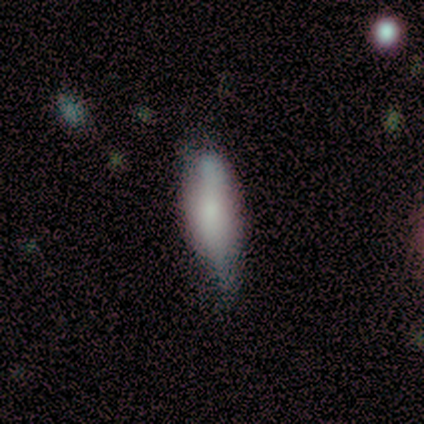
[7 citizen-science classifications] Q: Smooth or featured?
A: smooth (86%); runner-up: featured or disk (14%)
Q: How rounded?
A: in between (67%); runner-up: cigar-shaped (33%)
Q: Merging?
A: none (43%); tied with: minor disturbance (43%)